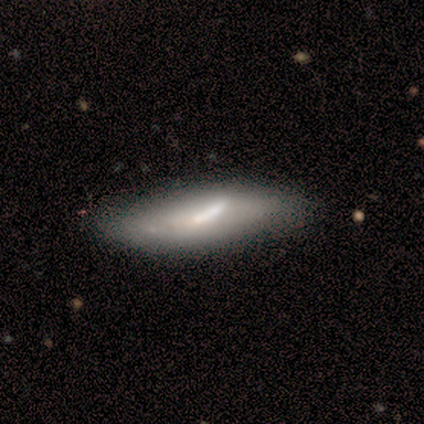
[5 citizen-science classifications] This is likely a smooth galaxy (60%). How rounded: clearly cigar-shaped (100%). Merging: likely none (75%).